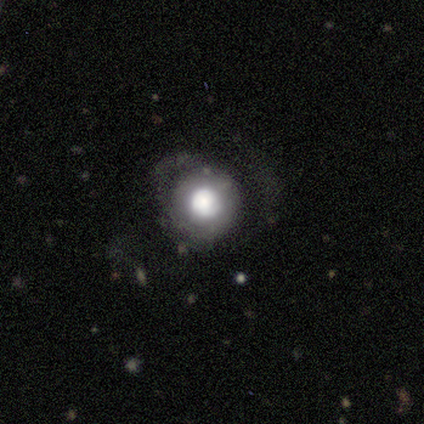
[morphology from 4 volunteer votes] This appears to be a smooth galaxy with no disk features (100%) that is round (100%). Merging: major disturbance (100%).